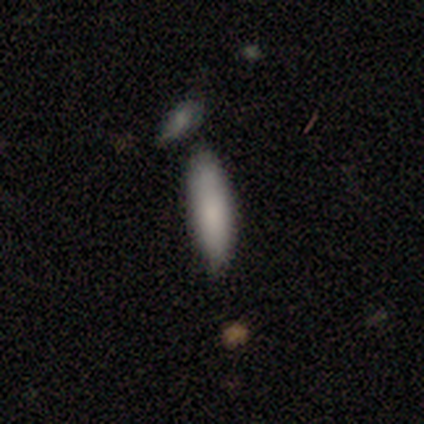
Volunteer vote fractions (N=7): This is clearly a smooth galaxy (86%). How rounded: likely cigar-shaped (67%). Merging: clearly none (100%).